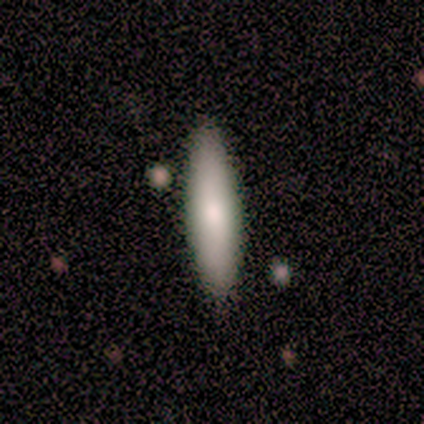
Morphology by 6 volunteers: Smooth or featured?
  - smooth: 83% *
  - star or artifact: 17%
  - featured or disk: 0%
How rounded?
  - cigar-shaped: 100% *
  - round: 0%
  - in between: 0%
Merging?
  - none: 100% *
  - minor disturbance: 0%
  - major disturbance: 0%
  - merger: 0%